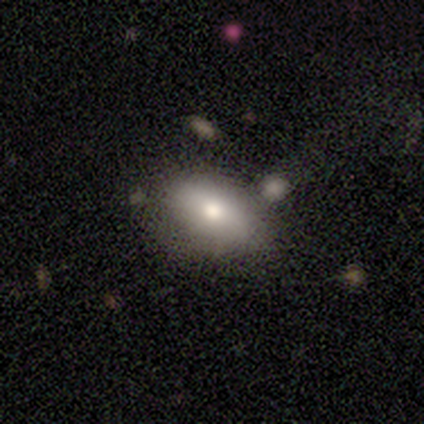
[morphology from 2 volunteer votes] Smooth or featured?
  - smooth: 100% *
  - featured or disk: 0%
  - star or artifact: 0%
How rounded?
  - in between: 100% *
  - round: 0%
  - cigar-shaped: 0%
Merging?
  - none: 50% * (tied)
  - minor disturbance: 50% * (tied)
  - major disturbance: 0%
  - merger: 0%